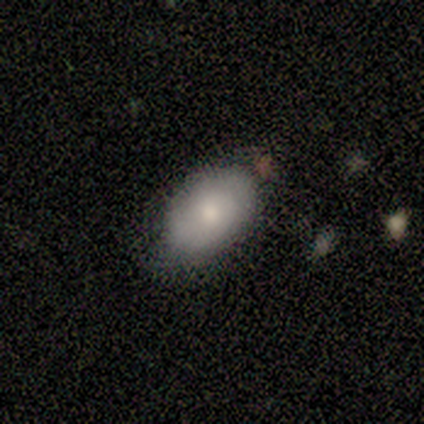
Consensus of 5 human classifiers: A smooth galaxy with no disk features (40%, tied with featured or disk) that is in between round and cigar-shaped (100%). Merging: none (100%).